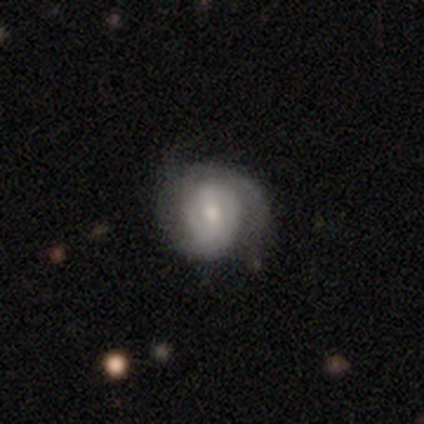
Smooth or featured? 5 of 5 (100%) said featured or disk. Edge-on disk? 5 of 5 (100%) said no. Bar? 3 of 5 (60%) said weak. Spiral arms? 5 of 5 (100%) said yes. Spiral winding? 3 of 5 (60%) said tight. Spiral arm count? 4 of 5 (80%) said 2. Bulge size? 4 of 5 (80%) said small. Merging? 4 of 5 (80%) said none.